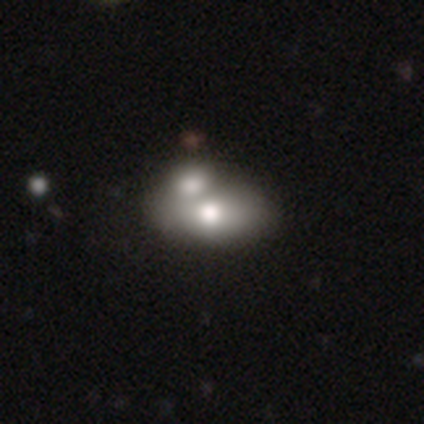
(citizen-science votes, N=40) smooth 70%, featured or disk 22%, star or artifact 8%. Down the decision tree: how rounded — in between (93%); merging — merger (65%).